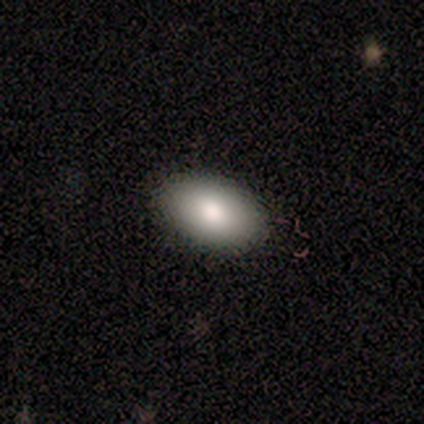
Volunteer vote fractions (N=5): A smooth galaxy with no disk features (100%) that is in between round and cigar-shaped (100%). Merging: none (100%).